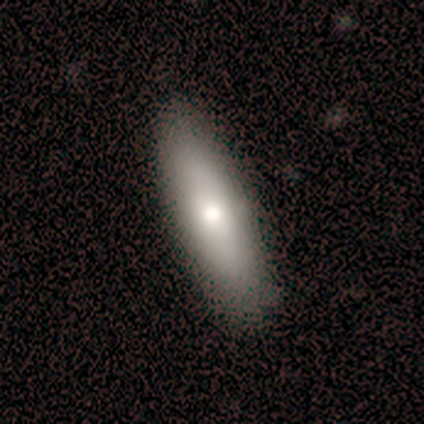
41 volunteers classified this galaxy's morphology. Smooth or featured? 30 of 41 (73%) said smooth. How rounded? 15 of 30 (50%, tied with cigar-shaped) said in between. Merging? 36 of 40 (90%) said none.